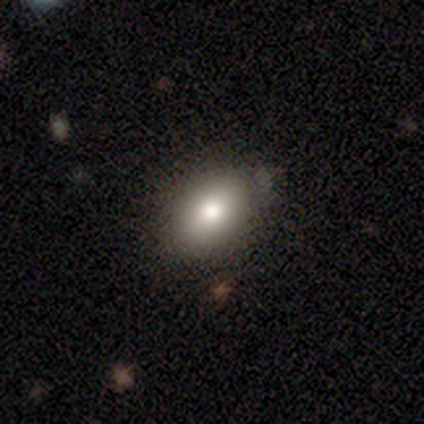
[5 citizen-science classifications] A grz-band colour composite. It shows a smooth galaxy with no disk features (100%) that is in between round and cigar-shaped (60%). Merging: none (100%).